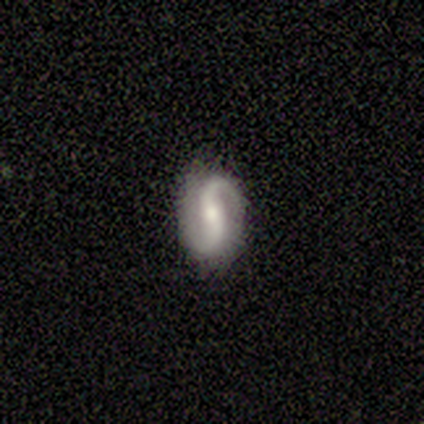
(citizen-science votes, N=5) Overall: featured or disk (80%). Edge-on disk: no (100%). Bar: weak (75%). Spiral arms: yes (100%). Spiral arm count: 2 (100%). Spiral winding: loose (75%). Bulge size: small (75%). Merging: none (100%).